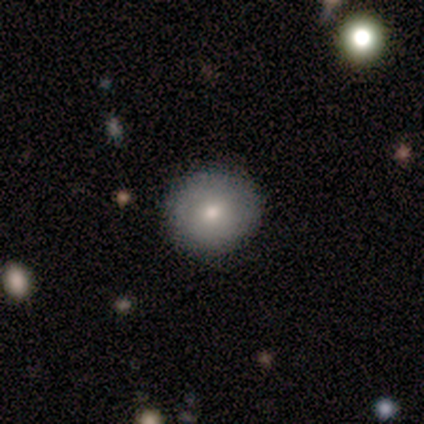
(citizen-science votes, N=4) Smooth or featured? featured or disk (75%)
Edge-on disk? no (100%)
Bar? no (100%)
Spiral arms? no (100%)
Bulge size? moderate (67%)
Merging? none (75%)